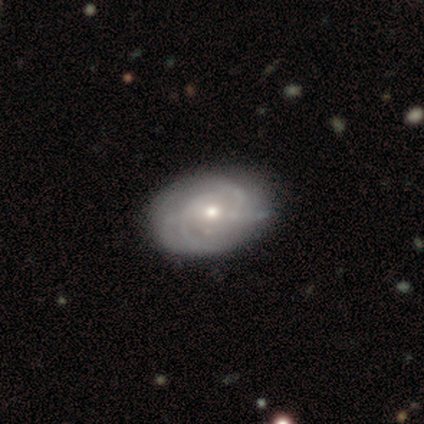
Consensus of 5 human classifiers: Overall: featured or disk (80%). Edge-on disk: no (75%). Bar: no (100%). Spiral arms: yes (100%). Spiral arm count: 2 (33%, tied with 3 and can't tell). Spiral winding: tight (33%, tied with medium and loose). Bulge size: small (67%; moderate 33%). Merging: none (80%).